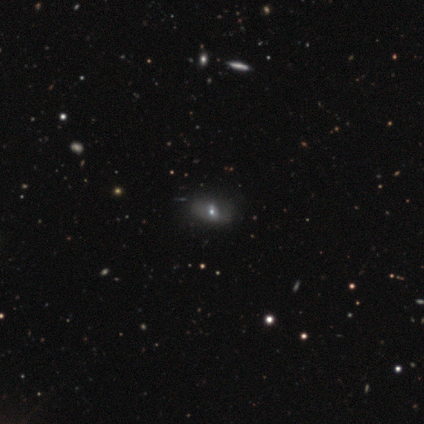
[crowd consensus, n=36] Volunteers were most divided on "smooth or featured": smooth: 44%, star or artifact: 31%, featured or disk: 25%. More confident: how rounded — in between (81%); merging — none (72%).